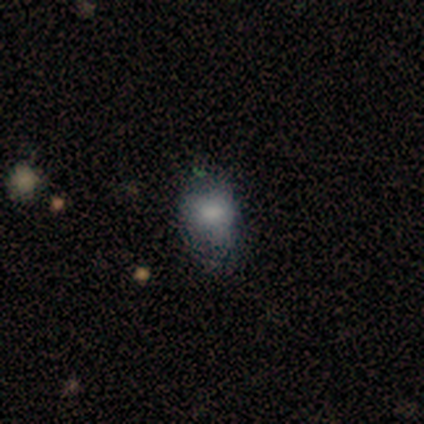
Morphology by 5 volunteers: smooth 40% (tied), star or artifact 40% (tied), featured or disk 20%. Down the decision tree: how rounded — round (100%); merging — minor disturbance (67%).